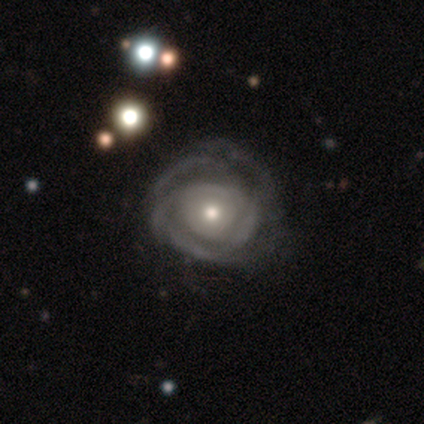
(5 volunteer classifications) smooth_or_featured: featured or disk (p=1.00)
disk_edge_on: no (p=1.00)
bar: no (p=0.80) [alt: weak p=0.20]
has_spiral_arms: yes (p=0.80) [alt: no p=0.20]
spiral_winding: tight (p=0.50) [tied with: medium p=0.50]
spiral_arm_count: 2 (p=0.25) [tied with: 3 p=0.25, more than 4 p=0.25, can't tell p=0.25]
bulge_size: moderate (p=0.60) [alt: small p=0.40]
merging: none (p=0.60) [alt: minor disturbance p=0.20]